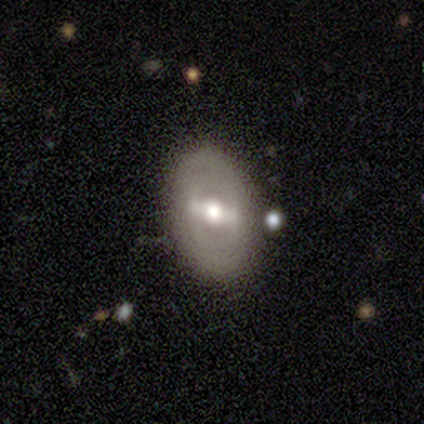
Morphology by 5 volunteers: featured or disk 60%, smooth 20%, star or artifact 20%. Down the decision tree: edge-on disk — no (67%); bar — strong (100%); spiral arms — no (100%); bulge size — large (50%, tied with moderate); merging — none (75%).